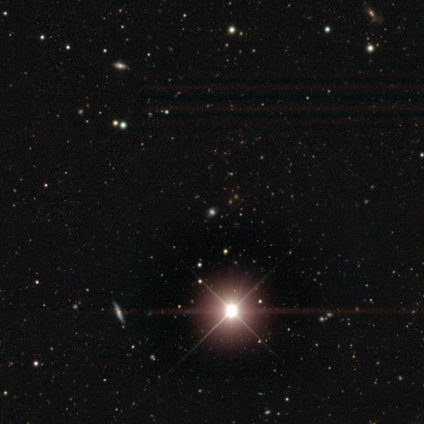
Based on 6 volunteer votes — This is clearly a star or artifact rather than a galaxy (83%).